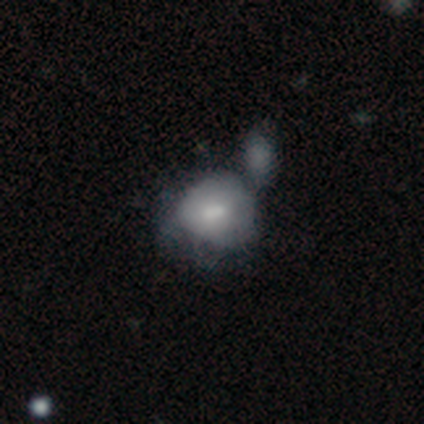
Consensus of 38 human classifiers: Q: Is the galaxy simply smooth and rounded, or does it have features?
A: smooth — 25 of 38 (66%).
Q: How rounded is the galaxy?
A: in between — 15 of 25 (60%).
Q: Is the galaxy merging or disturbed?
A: merger — 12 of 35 (34%).